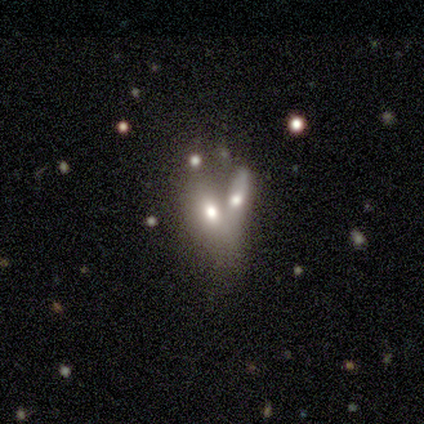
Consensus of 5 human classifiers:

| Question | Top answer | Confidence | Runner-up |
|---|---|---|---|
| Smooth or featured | smooth | 60% | featured or disk (40%) |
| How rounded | round | 33% | tied: in between (33%), cigar-shaped (33%) |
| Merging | merger | 100% | — |